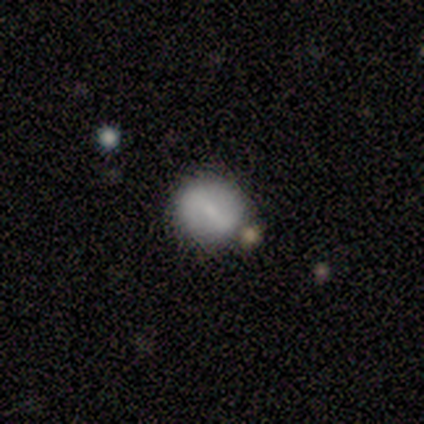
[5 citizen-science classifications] Smooth or featured?
  - smooth: 80% *
  - featured or disk: 20%
  - star or artifact: 0%
How rounded?
  - round: 100% *
  - in between: 0%
  - cigar-shaped: 0%
Merging?
  - none: 40% * (tied)
  - minor disturbance: 40% * (tied)
  - merger: 20%
  - major disturbance: 0%